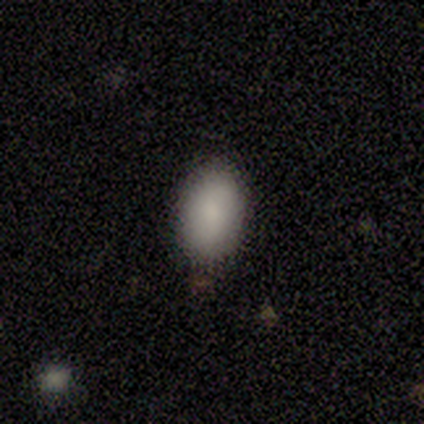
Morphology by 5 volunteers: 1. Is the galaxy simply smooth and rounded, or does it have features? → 80% smooth, 20% featured or disk, 0% star or artifact.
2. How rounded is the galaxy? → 75% in between, 25% round, 0% cigar-shaped.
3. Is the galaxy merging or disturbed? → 100% none, 0% minor disturbance, 0% major disturbance, 0% merger.